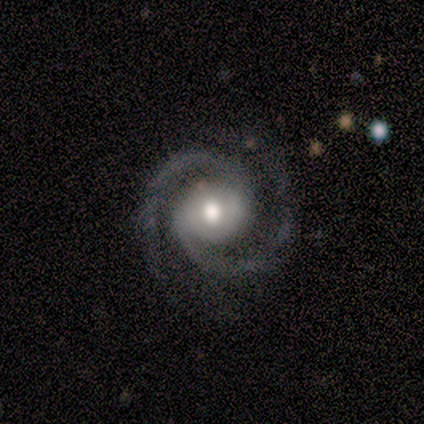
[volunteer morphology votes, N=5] Smooth or featured? featured or disk (80%)
Edge-on disk? no (75%)
Bar? weak (67%)
Spiral arms? yes (100%)
Spiral winding? loose (67%)
Spiral arm count? 2 (100%)
Bulge size? large (67%)
Merging? none (100%)